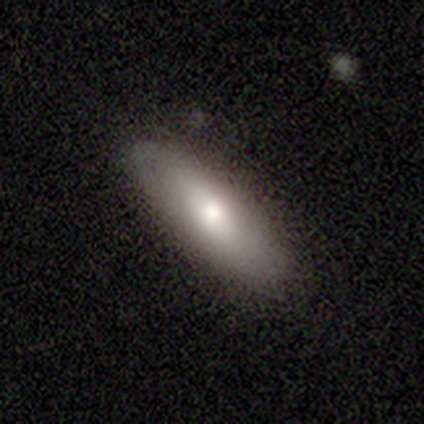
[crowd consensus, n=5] smooth_or_featured: smooth (p=0.60) [alt: featured or disk p=0.20]
how_rounded: in between (p=0.67) [alt: cigar-shaped p=0.33]
merging: none (p=1.00)